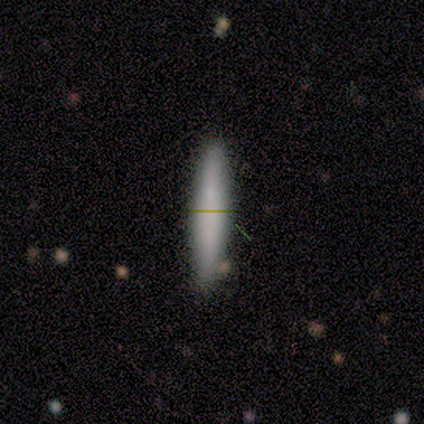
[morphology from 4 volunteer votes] This appears to be a smooth galaxy with no disk features (100%) that is cigar-shaped (75%). Merging: none (75%).